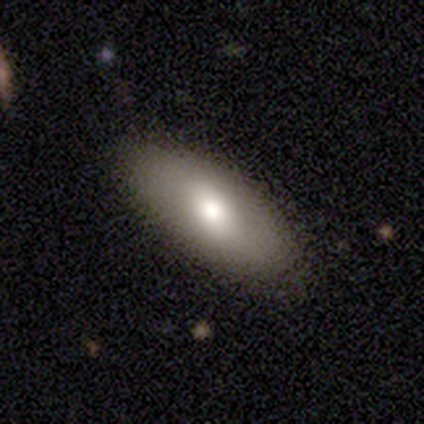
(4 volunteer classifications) A smooth galaxy with no disk features (75%) that is in between round and cigar-shaped (100%).

Vote fractions:
- Smooth or featured? smooth: 75% / featured or disk: 25% / star or artifact: 0%
- How rounded? in between: 100% / round: 0% / cigar-shaped: 0%
- Merging? none: 100% / minor disturbance: 0% / major disturbance: 0% / merger: 0%